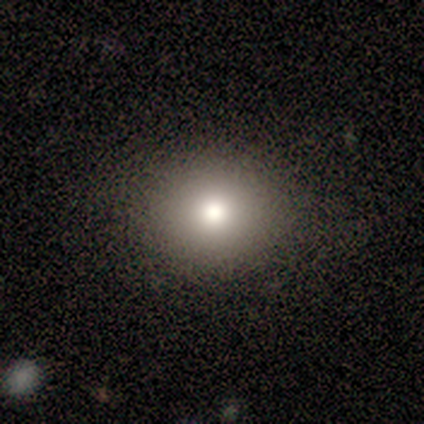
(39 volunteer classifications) This appears to be a smooth galaxy with no disk features (74%) that is round (79%). Merging: none (88%).